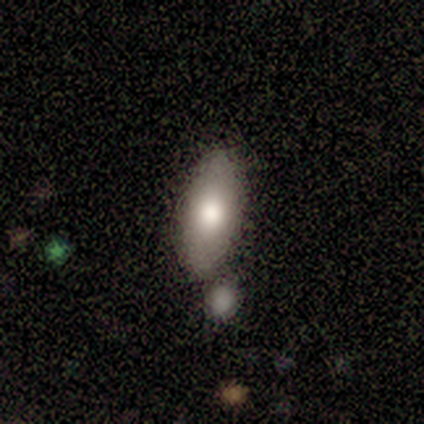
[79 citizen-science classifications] Q: Smooth or featured?
A: smooth (81%); runner-up: featured or disk (16%)
Q: How rounded?
A: in between (84%); runner-up: cigar-shaped (16%)
Q: Merging?
A: none (40%); runner-up: merger (22%)